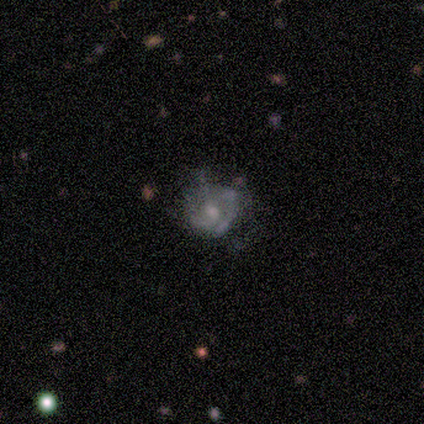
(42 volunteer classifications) smooth-or-featured: featured or disk: 81% | smooth: 19% | star or artifact: 0%
  disk-edge-on: no: 100% | yes: 0%
    bar: no: 82% | weak: 15% | strong: 3%
    has-spiral-arms: no: 53% | yes: 47%
    bulge-size: moderate: 50% | small: 32% | none: 12% | large: 6% | dominant: 0%
  merging: none: 38% | major disturbance: 33% | minor disturbance: 26% | merger: 2%